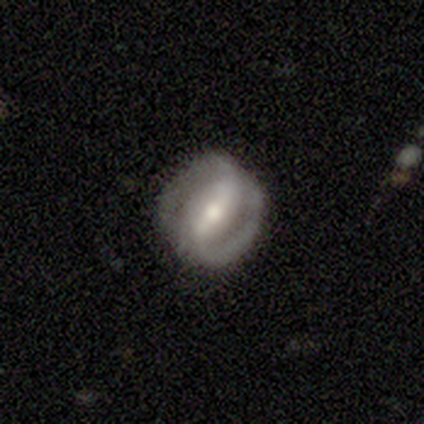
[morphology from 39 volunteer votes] Smooth or featured? 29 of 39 (74%) said featured or disk. Edge-on disk? 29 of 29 (100%) said no. Bar? 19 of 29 (66%) said strong. Spiral arms? 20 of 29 (69%) said yes. Spiral winding? 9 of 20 (45%) said tight. Spiral arm count? 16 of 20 (80%) said 2. Bulge size? 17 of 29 (59%) said moderate. Merging? 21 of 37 (57%) said none.